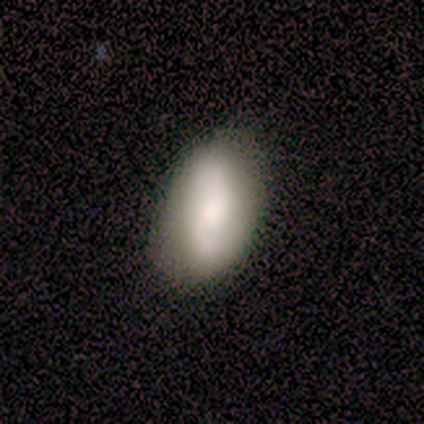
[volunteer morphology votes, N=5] This appears to be a smooth galaxy with no disk features (80%) that is in between round and cigar-shaped (100%). Merging: none (80%).